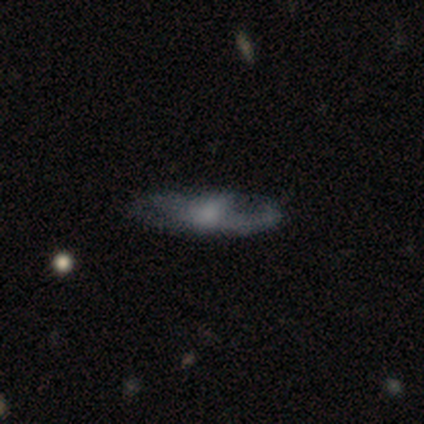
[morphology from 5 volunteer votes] Q: Smooth or featured?
A: featured or disk (60%); runner-up: smooth (40%)
Q: Edge-on disk?
A: no (100%)
Q: Bar?
A: no (67%); runner-up: strong (33%)
Q: Spiral arms?
A: yes (67%); runner-up: no (33%)
Q: Spiral winding?
A: tight (50%); tied with: medium (50%)
Q: Spiral arm count?
A: 2 (100%)
Q: Bulge size?
A: moderate (67%); runner-up: small (33%)
Q: Merging?
A: none (80%); runner-up: minor disturbance (20%)